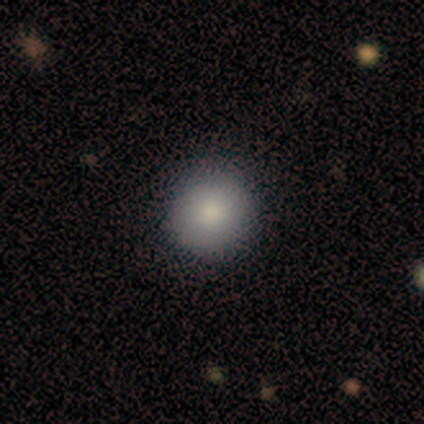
This appears to be a smooth galaxy with no disk features (100%) that is round (100%). Merging: none (100%).